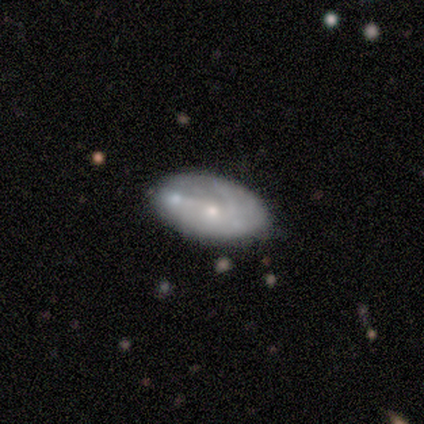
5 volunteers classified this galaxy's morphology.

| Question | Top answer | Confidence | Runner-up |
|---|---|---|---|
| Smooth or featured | smooth | 80% | featured or disk (20%) |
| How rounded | in between | 100% | — |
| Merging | none | 40% | minor disturbance (20%) |